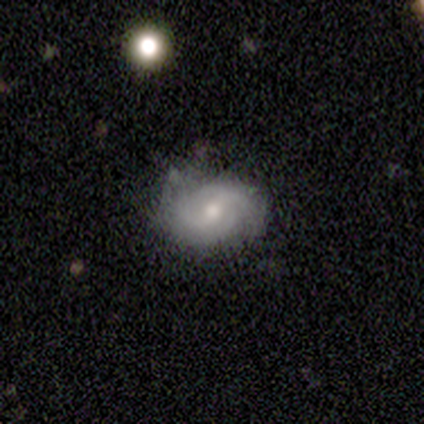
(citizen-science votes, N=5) A featured or disk galaxy (60%) with a strong bar (33%, tied with weak and no), 2 (67%) tight (33%, tied with medium and loose) spiral arms (100%) and a small central bulge (67%).

Vote fractions:
- Smooth or featured? featured or disk: 60% / smooth: 40% / star or artifact: 0%
- Edge-on disk? no: 100% / yes: 0%
- Bar? strong: 33% (tied) / weak: 33% (tied) / no: 33% (tied)
- Spiral arms? yes: 100% / no: 0%
- Spiral winding? tight: 33% (tied) / medium: 33% (tied) / loose: 33% (tied)
- Spiral arm count? 2: 67% / can't tell: 33% / 1: 0% / 3: 0% / 4: 0% / more than 4: 0%
- Bulge size? small: 67% / moderate: 33% / dominant: 0% / large: 0% / none: 0%
- Merging? none: 60% / minor disturbance: 20% / major disturbance: 20% / merger: 0%